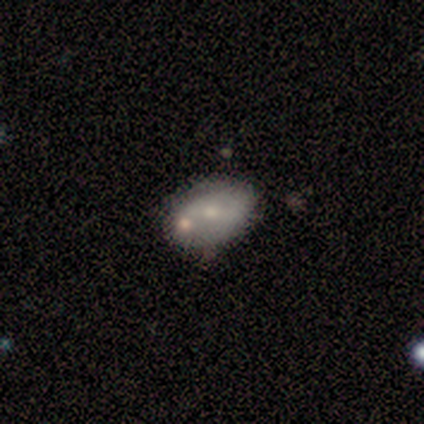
Smooth or featured?
  - featured or disk: 60% *
  - smooth: 40%
  - star or artifact: 0%
Edge-on disk?
  - no: 100% *
  - yes: 0%
Bar?
  - no: 67% *
  - strong: 33%
  - weak: 0%
Spiral arms?
  - no: 67% *
  - yes: 33%
Bulge size?
  - small: 67% *
  - moderate: 33%
  - dominant: 0%
  - large: 0%
  - none: 0%
Merging?
  - none: 80% *
  - minor disturbance: 20%
  - major disturbance: 0%
  - merger: 0%